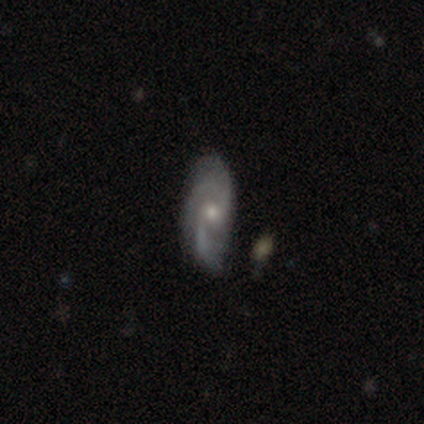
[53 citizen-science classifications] This appears to be a featured or disk galaxy (83%) with no bar (71%), 2 (50%) medium (47%) spiral arms (93%) and a moderate central bulge (49%). Merging: none (69%).